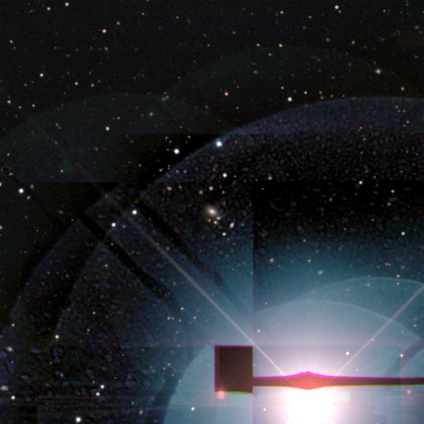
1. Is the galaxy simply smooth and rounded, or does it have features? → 86% star or artifact, 14% smooth, 0% featured or disk.